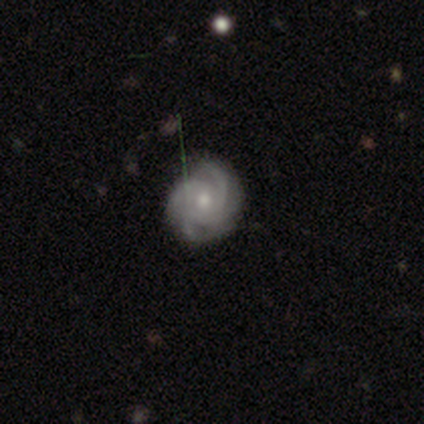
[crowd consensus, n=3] A featured or disk galaxy (100%) with no bar (100%), 4 (100%) tight (100%) spiral arms (100%) and a moderate central bulge (100%).

Vote fractions:
- Smooth or featured? featured or disk: 100% / smooth: 0% / star or artifact: 0%
- Edge-on disk? no: 100% / yes: 0%
- Bar? no: 100% / strong: 0% / weak: 0%
- Spiral arms? yes: 100% / no: 0%
- Spiral winding? tight: 100% / medium: 0% / loose: 0%
- Spiral arm count? 4: 100% / 1: 0% / 2: 0% / 3: 0% / more than 4: 0% / can't tell: 0%
- Bulge size? moderate: 100% / dominant: 0% / large: 0% / small: 0% / none: 0%
- Merging? none: 67% / minor disturbance: 33% / major disturbance: 0% / merger: 0%